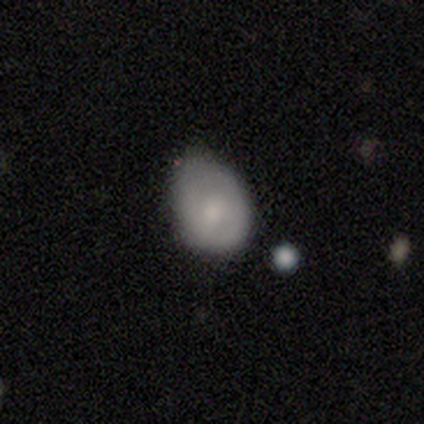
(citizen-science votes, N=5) A smooth galaxy with no disk features (80%) that is in between round and cigar-shaped (100%). Merging: minor disturbance (60%).